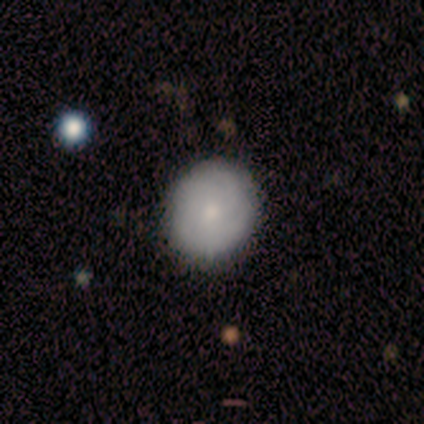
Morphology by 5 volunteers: Overall: smooth (80%). How rounded: round (100%). Merging: none (80%).